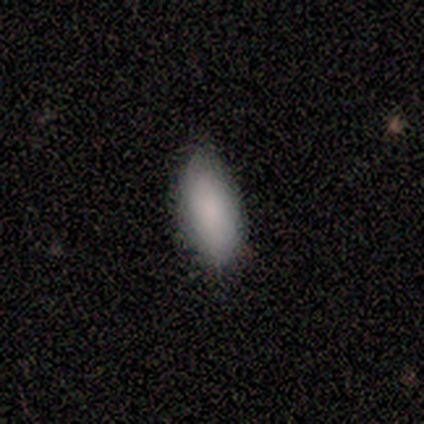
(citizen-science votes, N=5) Smooth or featured?
  - smooth: 100% *
  - featured or disk: 0%
  - star or artifact: 0%
How rounded?
  - in between: 100% *
  - round: 0%
  - cigar-shaped: 0%
Merging?
  - none: 100% *
  - minor disturbance: 0%
  - major disturbance: 0%
  - merger: 0%